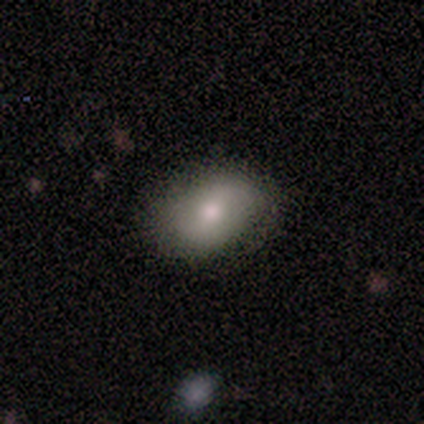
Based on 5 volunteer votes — This appears to be a smooth galaxy with no disk features (80%) that is in between round and cigar-shaped (75%). Merging: none (100%).